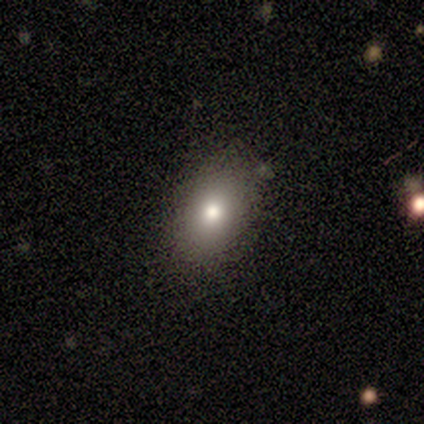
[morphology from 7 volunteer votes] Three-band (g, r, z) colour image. It shows a smooth galaxy with no disk features (86%) that is round (50%, tied with in between). Merging: none (100%).